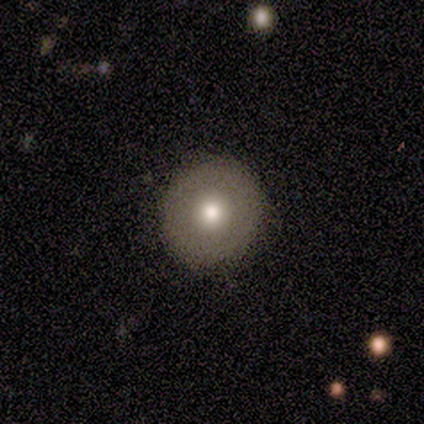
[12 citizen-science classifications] A smooth galaxy with no disk features (75%) that is round (78%). Merging: none (100%).